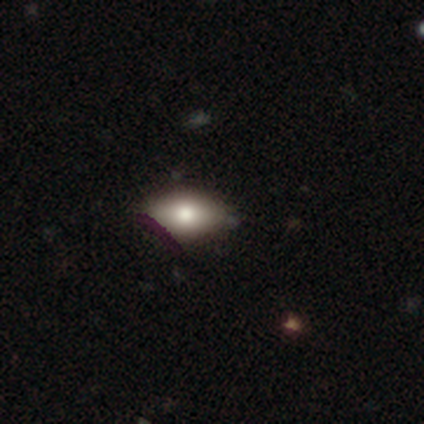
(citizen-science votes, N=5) smooth-or-featured: smooth: 80% | featured or disk: 20% | star or artifact: 0%
  how-rounded: in between: 100% | round: 0% | cigar-shaped: 0%
  merging: none: 80% | minor disturbance: 20% | major disturbance: 0% | merger: 0%